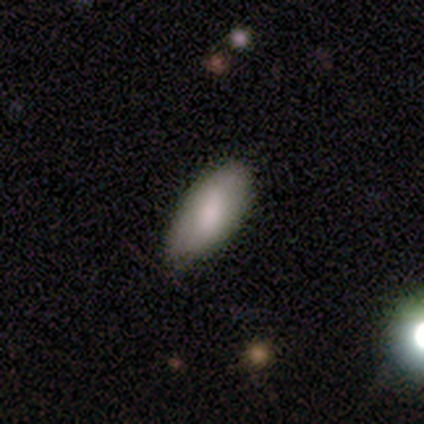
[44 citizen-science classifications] Overall: smooth (80%). How rounded: in between (97%). Merging: none (74%).